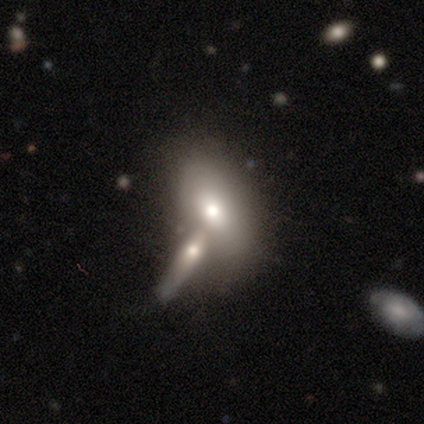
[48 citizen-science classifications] This is likely a smooth galaxy (65%). How rounded: likely in between (77%). Merging: possibly merger (60%).